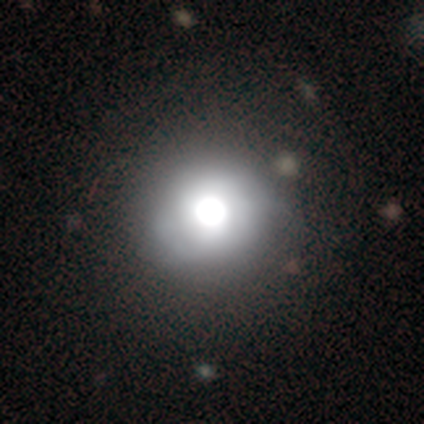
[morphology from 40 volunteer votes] Overall: smooth (70%). How rounded: round (93%). Merging: none (36%; minor disturbance 6%).